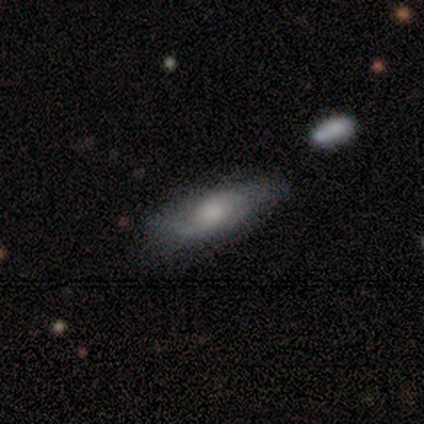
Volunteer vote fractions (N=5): smooth-or-featured: featured or disk: 60% | smooth: 20% | star or artifact: 20%
  disk-edge-on: no: 67% | yes: 33%
    bar: no: 100% | strong: 0% | weak: 0%
    has-spiral-arms: yes: 100% | no: 0%
      spiral-winding: tight: 50% (tied) | medium: 50% (tied) | loose: 0%
      spiral-arm-count: 2: 100% | 1: 0% | 3: 0% | 4: 0% | more than 4: 0% | can't tell: 0%
    bulge-size: large: 50% (tied) | small: 50% (tied) | dominant: 0% | moderate: 0% | none: 0%
  merging: none: 50% (tied) | minor disturbance: 50% (tied) | major disturbance: 0% | merger: 0%